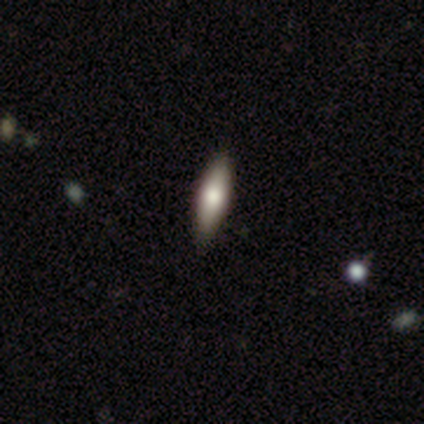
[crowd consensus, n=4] smooth 100%, featured or disk 0%, star or artifact 0%. Down the decision tree: how rounded — in between (50%, tied with cigar-shaped); merging — none (75%).